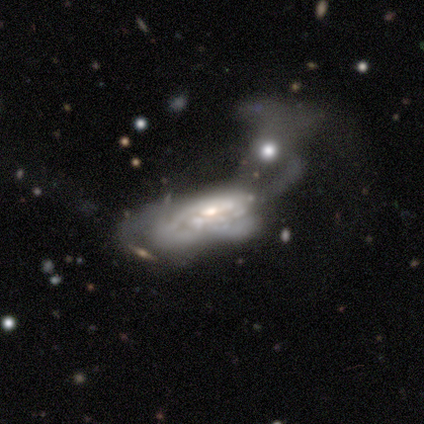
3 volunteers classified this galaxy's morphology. Volunteers were most divided on "smooth or featured" (3-way tie): smooth: 33%, featured or disk: 33%, star or artifact: 33%; "merging" (2-way tie): minor disturbance: 50%, major disturbance: 50%, none: 0%, merger: 0%. More confident: how rounded — in between (100%).